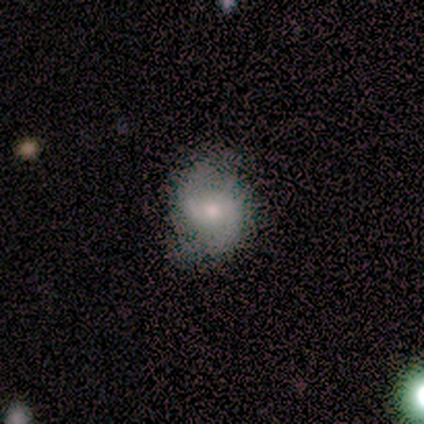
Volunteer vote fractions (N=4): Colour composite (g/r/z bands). It shows a featured or disk galaxy (50%) with a weak bar (50%, tied with no), 2 (100%) loose (100%) spiral arms (100%) and a large central bulge (50%, tied with moderate). Merging: none (67%).